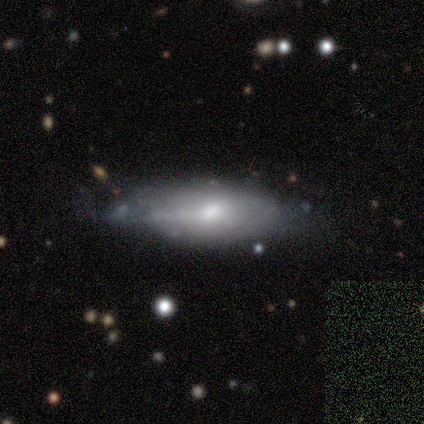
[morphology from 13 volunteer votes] A featured or disk galaxy (62%) with a weak bar (67%), tight (60%) spiral arms (83%) and a moderate central bulge (100%).

Vote fractions:
- Smooth or featured? featured or disk: 62% / smooth: 38% / star or artifact: 0%
- Edge-on disk? no: 75% / yes: 25%
- Bar? weak: 67% / no: 33% / strong: 0%
- Spiral arms? yes: 83% / no: 17%
- Spiral winding? tight: 60% / medium: 40% / loose: 0%
- Spiral arm count? can't tell: 80% / 2: 20% / 1: 0% / 3: 0% / 4: 0% / more than 4: 0%
- Bulge size? moderate: 100% / dominant: 0% / large: 0% / small: 0% / none: 0%
- Merging? minor disturbance: 54% / none: 46% / major disturbance: 0% / merger: 0%